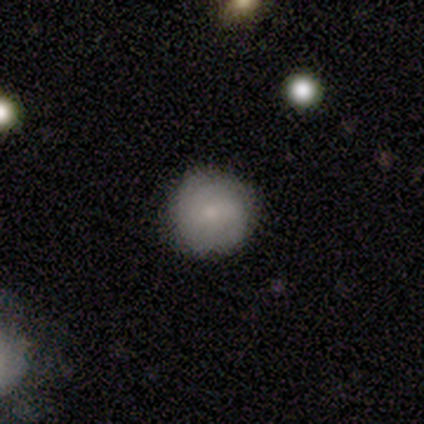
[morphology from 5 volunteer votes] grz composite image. It shows a smooth galaxy with no disk features (80%) that is round (100%). Merging: none (60%).